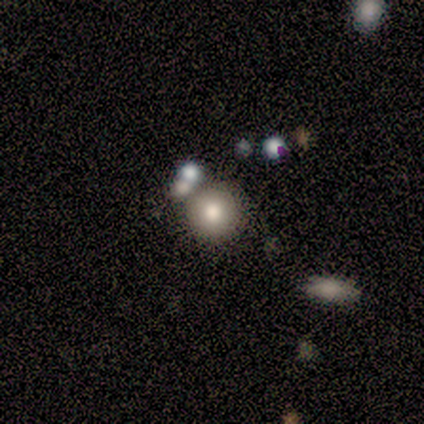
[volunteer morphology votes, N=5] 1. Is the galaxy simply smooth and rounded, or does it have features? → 80% smooth, 20% star or artifact, 0% featured or disk.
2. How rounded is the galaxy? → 100% round, 0% in between, 0% cigar-shaped.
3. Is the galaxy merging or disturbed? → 50% none (tied), 50% merger (tied), 0% minor disturbance, 0% major disturbance.